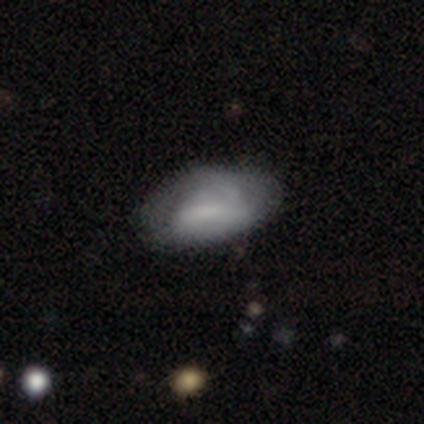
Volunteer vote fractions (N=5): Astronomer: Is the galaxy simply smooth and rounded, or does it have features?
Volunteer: featured or disk — 60% (runner-up: smooth, 40%).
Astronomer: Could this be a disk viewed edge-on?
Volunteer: no — 100%.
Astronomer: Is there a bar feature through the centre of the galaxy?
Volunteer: no — 67%.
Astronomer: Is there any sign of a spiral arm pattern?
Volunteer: no — 67%.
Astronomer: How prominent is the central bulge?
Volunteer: large — 33%, tied with moderate and none at 33%.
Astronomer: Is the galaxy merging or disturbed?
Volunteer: none — 40%, tied with minor disturbance at 40%.